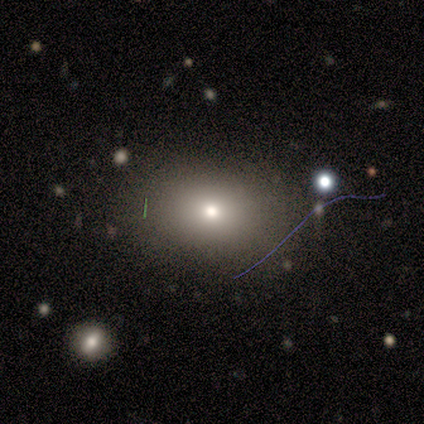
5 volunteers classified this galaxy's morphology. This is likely a smooth galaxy (60%). How rounded: likely in between (67%). Merging: clearly none (100%).